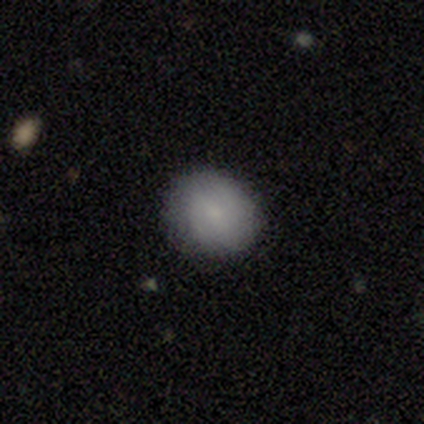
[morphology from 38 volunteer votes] smooth 89%, featured or disk 8%, star or artifact 3%. Down the decision tree: how rounded — round (74%); merging — none (89%).